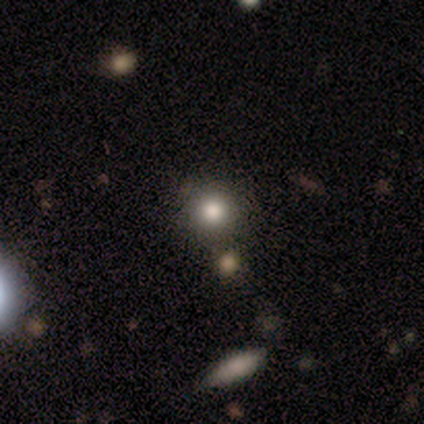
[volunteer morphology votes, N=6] This is possibly a smooth galaxy (50%, tied with star or artifact). How rounded: clearly round (100%). Merging: likely none (67%).